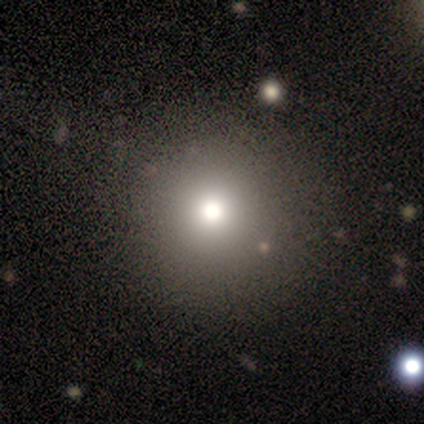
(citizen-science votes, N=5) A smooth galaxy with no disk features (80%) that is round (100%).

Vote fractions:
- Smooth or featured? smooth: 80% / star or artifact: 20% / featured or disk: 0%
- How rounded? round: 100% / in between: 0% / cigar-shaped: 0%
- Merging? none: 100% / minor disturbance: 0% / major disturbance: 0% / merger: 0%